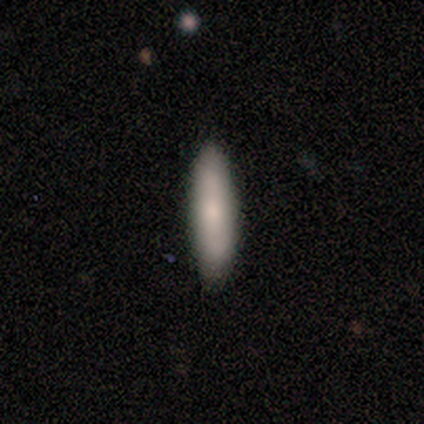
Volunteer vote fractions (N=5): Smooth or featured? smooth (100%)
How rounded? in between (60%)
Merging? none (100%)